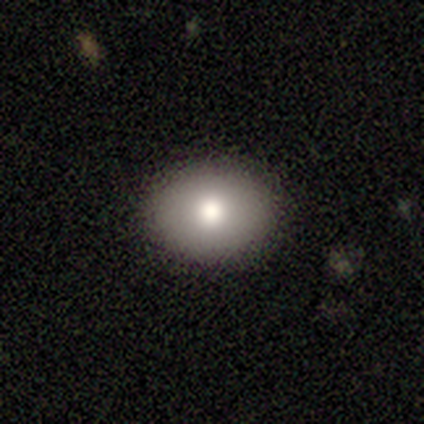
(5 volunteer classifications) Q: Smooth or featured?
A: smooth (80%); runner-up: star or artifact (20%)
Q: How rounded?
A: in between (75%); runner-up: round (25%)
Q: Merging?
A: none (100%)